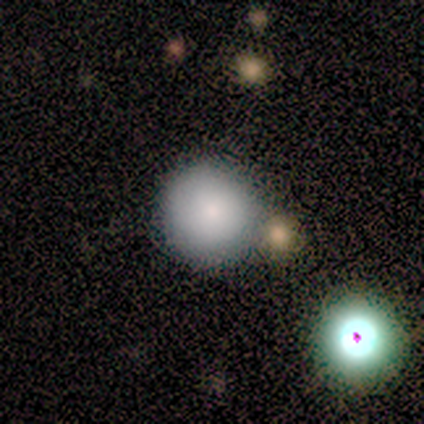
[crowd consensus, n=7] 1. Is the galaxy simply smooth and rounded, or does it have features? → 86% smooth, 14% featured or disk, 0% star or artifact.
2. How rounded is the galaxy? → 100% round, 0% in between, 0% cigar-shaped.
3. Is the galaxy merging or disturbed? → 100% none, 0% minor disturbance, 0% major disturbance, 0% merger.